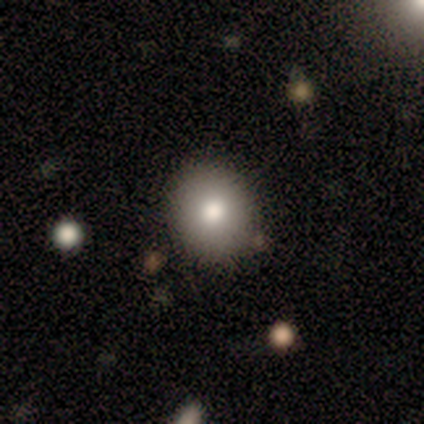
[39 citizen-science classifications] This is possibly a smooth galaxy (56%). How rounded: clearly round (82%). Merging: clearly none (83%).